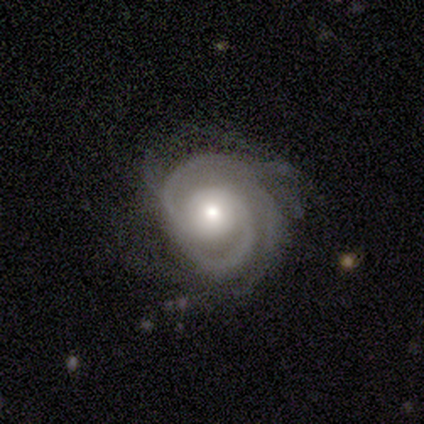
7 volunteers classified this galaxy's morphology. A featured or disk galaxy (100%) with no bar (86%), tight (71%) spiral arms (100%) and a moderate central bulge (71%).

Vote fractions:
- Smooth or featured? featured or disk: 100% / smooth: 0% / star or artifact: 0%
- Edge-on disk? no: 100% / yes: 0%
- Bar? no: 86% / weak: 14% / strong: 0%
- Spiral arms? yes: 100% / no: 0%
- Spiral winding? tight: 71% / medium: 29% / loose: 0%
- Spiral arm count? can't tell: 43% / 2: 14% / 3: 14% / 4: 14% / more than 4: 14% / 1: 0%
- Bulge size? moderate: 71% / large: 14% / small: 14% / dominant: 0% / none: 0%
- Merging? minor disturbance: 71% / none: 14% / major disturbance: 14% / merger: 0%